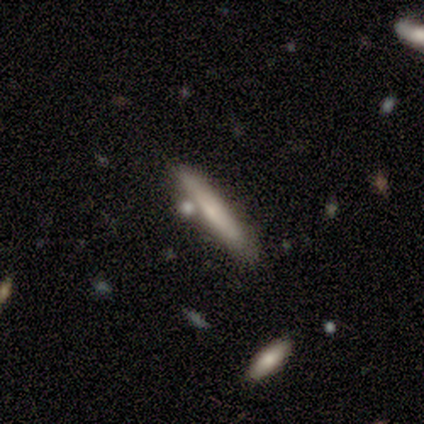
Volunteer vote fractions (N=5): A smooth galaxy with no disk features (60%) that is cigar-shaped (100%). Merging: none (100%).